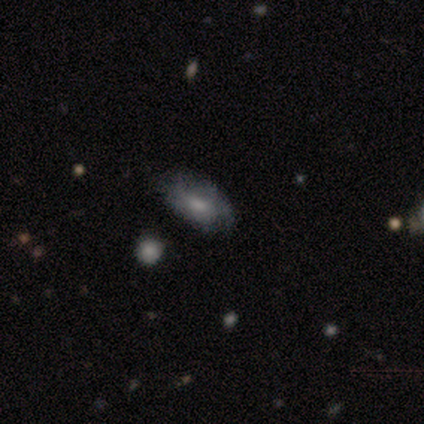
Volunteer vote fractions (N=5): A smooth galaxy with no disk features (60%) that is in between round and cigar-shaped (67%).

Vote fractions:
- Smooth or featured? smooth: 60% / featured or disk: 40% / star or artifact: 0%
- How rounded? in between: 67% / round: 33% / cigar-shaped: 0%
- Merging? none: 100% / minor disturbance: 0% / major disturbance: 0% / merger: 0%